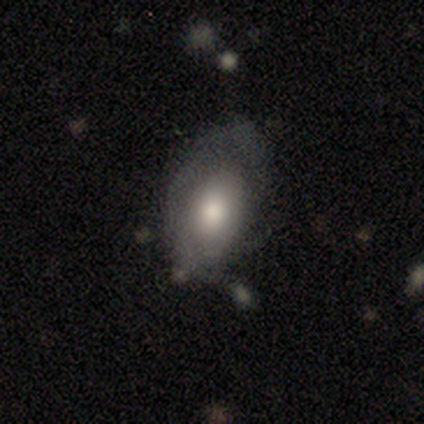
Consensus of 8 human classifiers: smooth 62%, featured or disk 38%, star or artifact 0%. Down the decision tree: how rounded — in between (100%); merging — minor disturbance (50%).